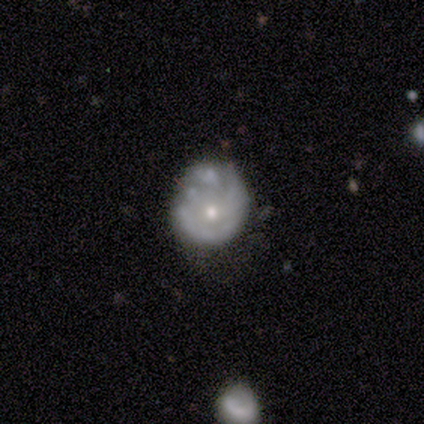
Smooth or featured?
  - featured or disk: 75% *
  - star or artifact: 25%
  - smooth: 0%
Edge-on disk?
  - no: 100% *
  - yes: 0%
Bar?
  - no: 100% *
  - strong: 0%
  - weak: 0%
Spiral arms?
  - yes: 67% *
  - no: 33%
Spiral winding?
  - tight: 50% * (tied)
  - loose: 50% * (tied)
  - medium: 0%
Spiral arm count?
  - can't tell: 100% *
  - 1: 0%
  - 2: 0%
  - 3: 0%
  - 4: 0%
  - more than 4: 0%
Bulge size?
  - small: 67% *
  - moderate: 33%
  - dominant: 0%
  - large: 0%
  - none: 0%
Merging?
  - none: 67% *
  - minor disturbance: 33%
  - major disturbance: 0%
  - merger: 0%